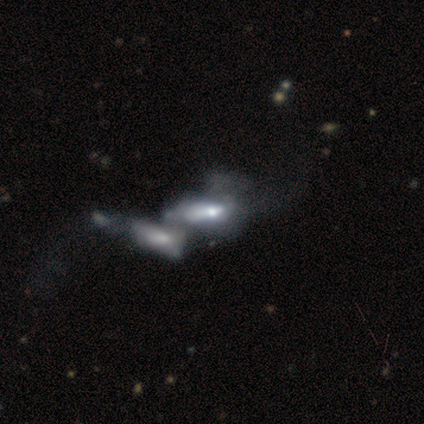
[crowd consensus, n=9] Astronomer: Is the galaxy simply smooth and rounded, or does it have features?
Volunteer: featured or disk — 56% (runner-up: smooth, 44%).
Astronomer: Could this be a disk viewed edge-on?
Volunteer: no — 100%.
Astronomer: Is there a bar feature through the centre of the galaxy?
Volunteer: no — 100%.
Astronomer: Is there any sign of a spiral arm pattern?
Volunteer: no — 80%.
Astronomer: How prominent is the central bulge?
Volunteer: moderate — 80%.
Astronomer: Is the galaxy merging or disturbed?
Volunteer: merger — 89%.